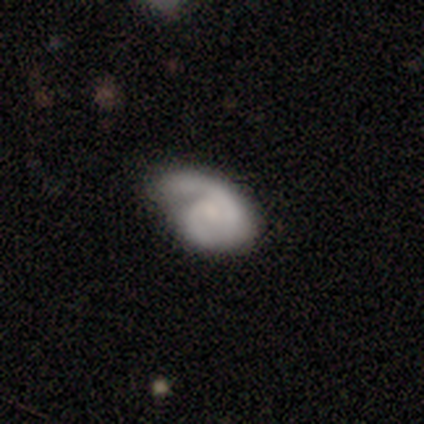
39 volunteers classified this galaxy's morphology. Q: Smooth or featured?
A: featured or disk (64%); runner-up: smooth (33%)
Q: Edge-on disk?
A: no (100%)
Q: Bar?
A: no (80%); runner-up: weak (20%)
Q: Spiral arms?
A: yes (92%); runner-up: no (8%)
Q: Spiral winding?
A: medium (61%); runner-up: tight (30%)
Q: Spiral arm count?
A: 2 (57%); runner-up: 1 (39%)
Q: Bulge size?
A: small (40%); runner-up: none (36%)
Q: Merging?
A: none (42%); runner-up: minor disturbance (34%)